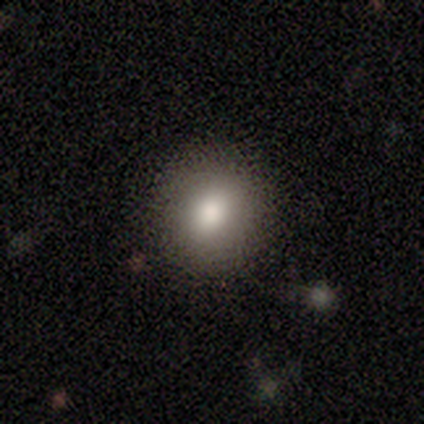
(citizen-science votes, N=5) A smooth galaxy with no disk features (60%) that is round (100%).

Vote fractions:
- Smooth or featured? smooth: 60% / featured or disk: 20% / star or artifact: 20%
- How rounded? round: 100% / in between: 0% / cigar-shaped: 0%
- Merging? none: 100% / minor disturbance: 0% / major disturbance: 0% / merger: 0%